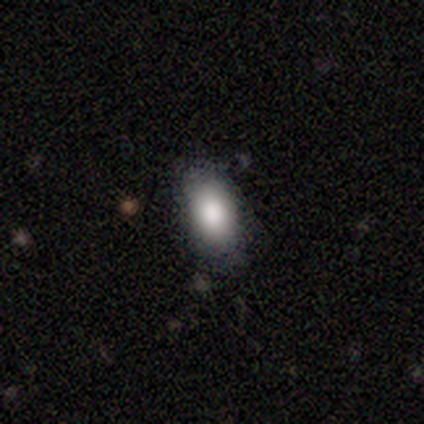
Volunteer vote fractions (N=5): Smooth or featured? smooth (60%)
How rounded? in between (100%)
Merging? none (100%)